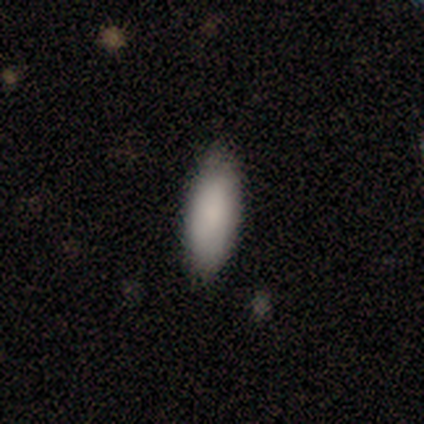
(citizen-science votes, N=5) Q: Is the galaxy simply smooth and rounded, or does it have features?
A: smooth — 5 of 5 (100%).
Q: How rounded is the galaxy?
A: in between — 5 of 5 (100%).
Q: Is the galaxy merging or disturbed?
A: none — 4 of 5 (80%).